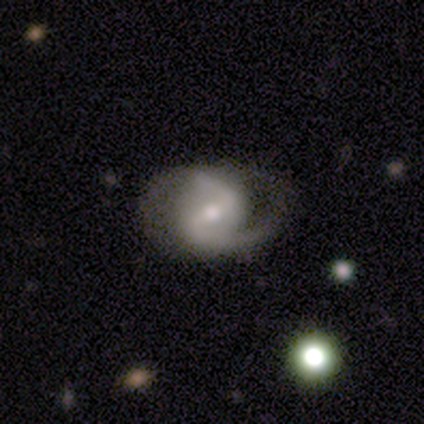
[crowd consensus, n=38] Smooth or featured? featured or disk (95%)
Edge-on disk? no (92%)
Bar? weak (64%)
Spiral arms? yes (94%)
Spiral winding? medium (58%)
Spiral arm count? 2 (84%)
Bulge size? moderate (48%)
Merging? none (63%)